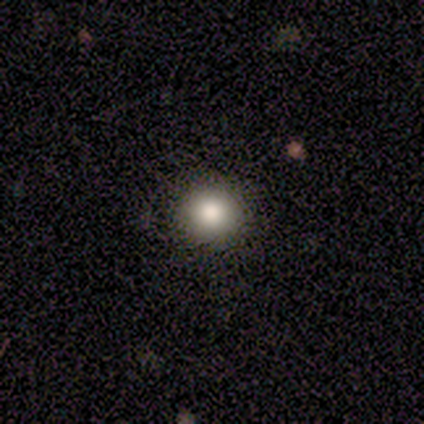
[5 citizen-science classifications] Smooth or featured? smooth (100%)
How rounded? round (100%)
Merging? none (80%)